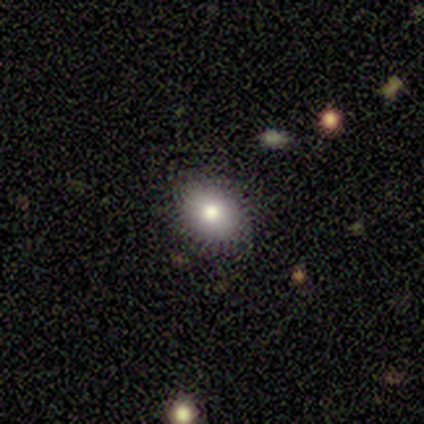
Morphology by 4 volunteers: A smooth galaxy with no disk features (75%) that is in between round and cigar-shaped (100%). Merging: none (100%).